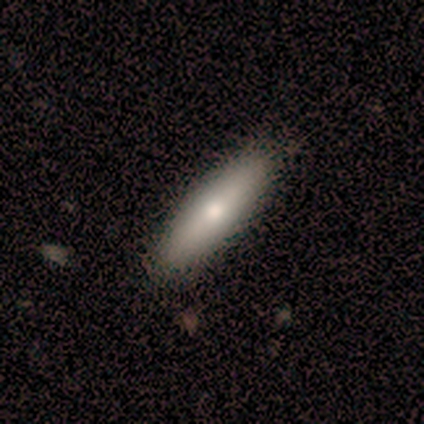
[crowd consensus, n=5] Q: Smooth or featured?
A: smooth (80%); runner-up: featured or disk (20%)
Q: How rounded?
A: cigar-shaped (75%); runner-up: in between (25%)
Q: Merging?
A: none (100%)